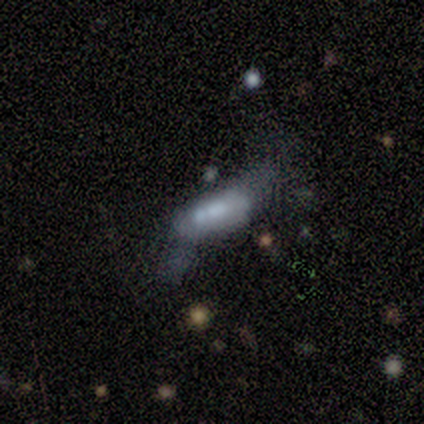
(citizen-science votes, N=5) Q: Smooth or featured?
A: smooth (80%); runner-up: featured or disk (20%)
Q: How rounded?
A: in between (75%); runner-up: cigar-shaped (25%)
Q: Merging?
A: none (40%); runner-up: minor disturbance (20%)